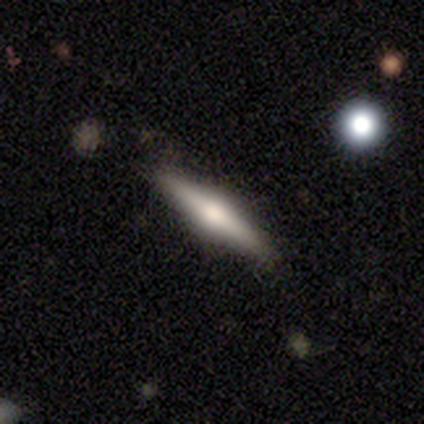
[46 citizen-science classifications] Smooth or featured? featured or disk (65%)
Edge-on disk? yes (97%)
Edge-on bulge? rounded (97%)
Merging? none (93%)